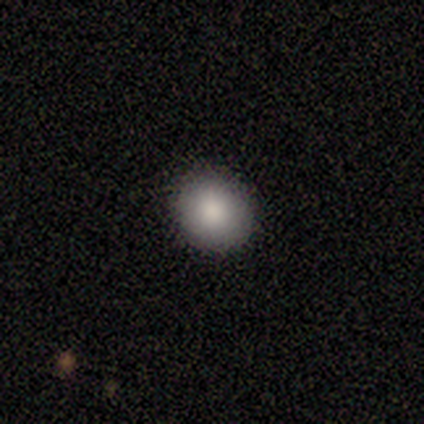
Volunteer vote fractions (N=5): smooth-or-featured: smooth: 100% | featured or disk: 0% | star or artifact: 0%
  how-rounded: round: 80% | in between: 20% | cigar-shaped: 0%
  merging: none: 100% | minor disturbance: 0% | major disturbance: 0% | merger: 0%